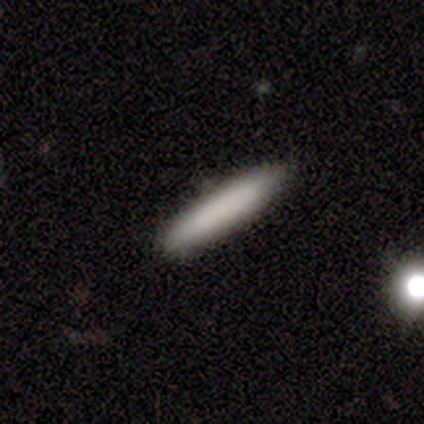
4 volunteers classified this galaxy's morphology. smooth_or_featured: smooth (p=0.75) [alt: featured or disk p=0.25]
how_rounded: cigar-shaped (p=1.00)
merging: none (p=1.00)